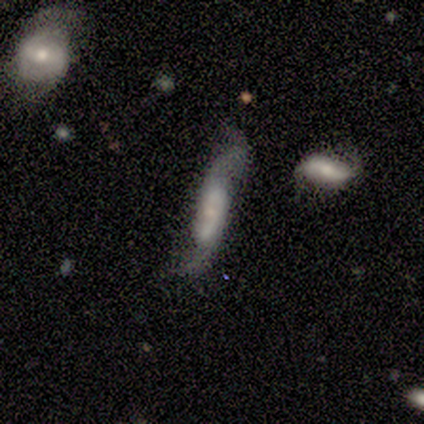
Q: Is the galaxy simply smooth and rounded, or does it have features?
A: featured or disk — 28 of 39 (72%).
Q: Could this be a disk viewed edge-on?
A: no — 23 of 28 (82%).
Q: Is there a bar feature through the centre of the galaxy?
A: no — 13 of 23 (57%).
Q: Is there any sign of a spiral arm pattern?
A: yes — 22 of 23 (96%).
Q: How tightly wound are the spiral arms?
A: loose — 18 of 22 (82%).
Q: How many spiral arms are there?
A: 2 — 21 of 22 (95%).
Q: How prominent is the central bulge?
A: small — 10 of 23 (43%).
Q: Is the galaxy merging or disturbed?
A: none — 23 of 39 (59%).